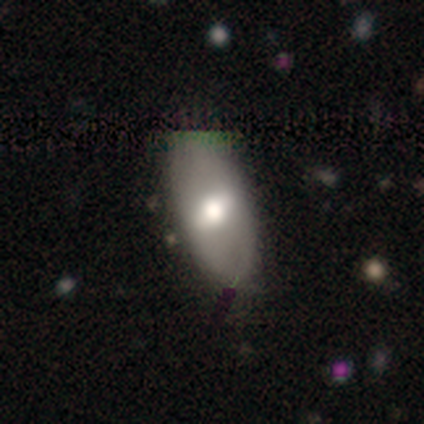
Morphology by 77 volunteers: Smooth or featured: smooth — 66% (featured or disk — 31%)
How rounded: in between — 94% (cigar-shaped — 4%)
Merging: none — 37% (minor disturbance — 11%)